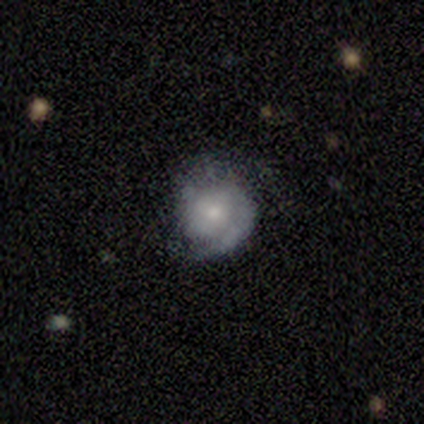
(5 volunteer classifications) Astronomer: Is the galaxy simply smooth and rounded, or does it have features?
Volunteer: featured or disk — 60% (runner-up: smooth, 40%).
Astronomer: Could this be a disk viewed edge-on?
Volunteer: no — 100%.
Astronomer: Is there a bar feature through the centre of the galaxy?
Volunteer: no — 100%.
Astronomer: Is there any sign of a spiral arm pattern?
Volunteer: yes — 67%.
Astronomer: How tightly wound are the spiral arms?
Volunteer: tight — 50%, tied with loose at 50%.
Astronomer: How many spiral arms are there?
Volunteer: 1 — 50%, tied with 2 at 50%.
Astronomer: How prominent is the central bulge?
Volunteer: small — 100%.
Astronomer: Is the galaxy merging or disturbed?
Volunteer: none — 40%, tied with minor disturbance at 40%.